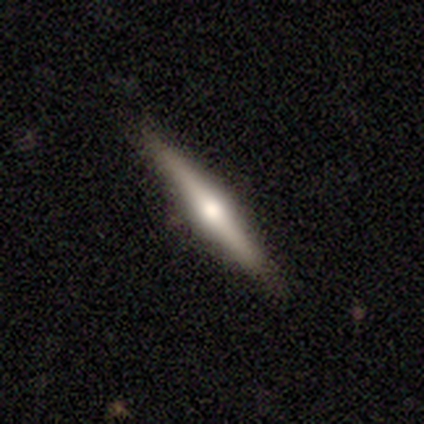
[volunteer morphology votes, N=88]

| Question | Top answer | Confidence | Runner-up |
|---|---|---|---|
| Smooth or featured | featured or disk | 56% | smooth (32%) |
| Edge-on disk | yes | 100% | — |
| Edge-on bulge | rounded | 94% | none (6%) |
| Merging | none | 86% | minor disturbance (10%) |